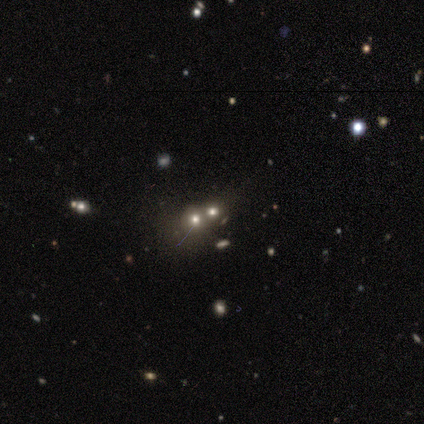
A smooth galaxy with no disk features (80%) that is in between round and cigar-shaped (75%). Merging: none (50%).